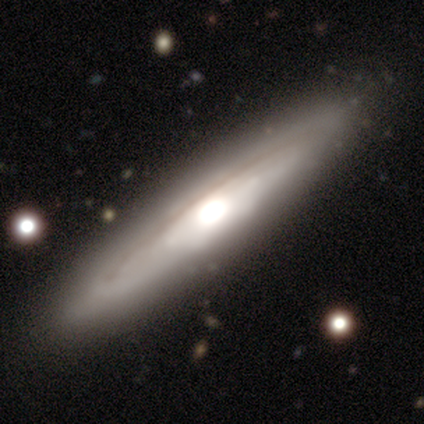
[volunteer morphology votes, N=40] Q: Smooth or featured?
A: featured or disk (82%); runner-up: smooth (18%)
Q: Edge-on disk?
A: yes (79%); runner-up: no (21%)
Q: Edge-on bulge?
A: rounded (62%); runner-up: boxy (27%)
Q: Merging?
A: none (60%); runner-up: merger (8%)